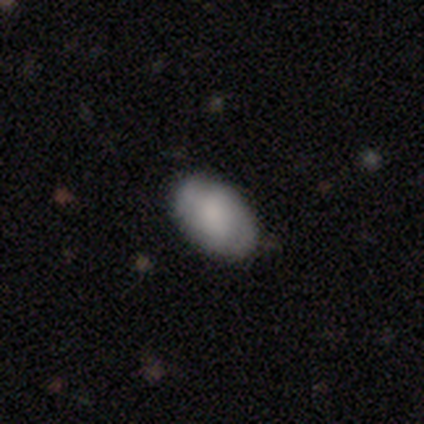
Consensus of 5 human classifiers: This appears to be a smooth galaxy with no disk features (40%, tied with featured or disk) that is in between round and cigar-shaped (100%). Merging: none (50%, tied with minor disturbance).